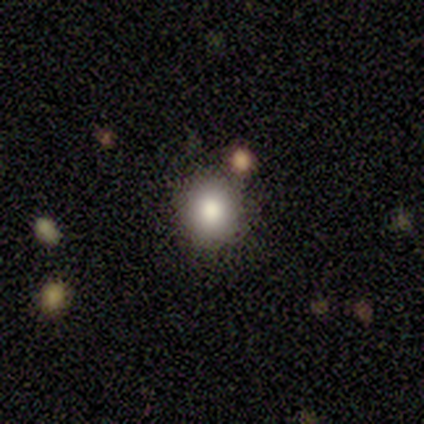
Smooth or featured: smooth — 80% (star or artifact — 20%)
How rounded: round — 50% (tied with in between — 50%)
Merging: none — 50% (tied with minor disturbance — 50%)